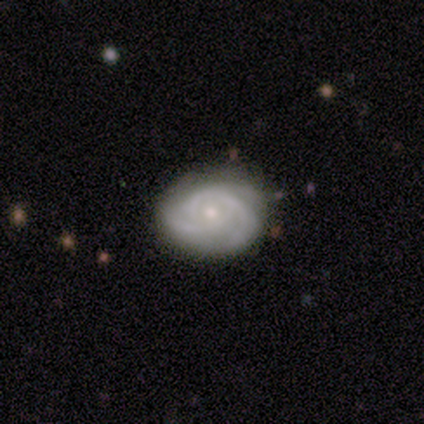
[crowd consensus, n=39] A featured or disk galaxy (82%) with no bar (78%), 3 (50%) tight (53%) spiral arms (100%) and a small central bulge (62%). Merging: none (81%).